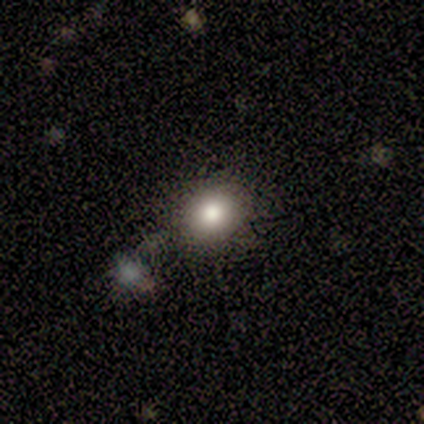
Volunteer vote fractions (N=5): This is clearly a smooth galaxy (100%). How rounded: likely round (60%). Merging: clearly none (80%).